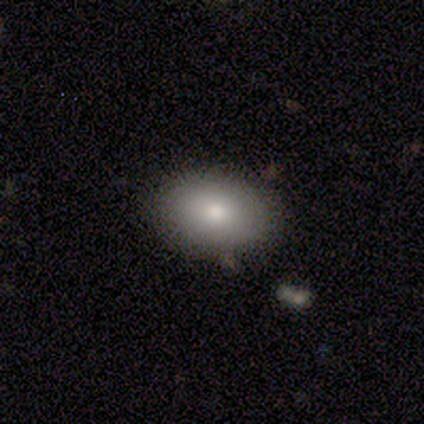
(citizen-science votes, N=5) Q: Smooth or featured?
A: smooth (80%); runner-up: star or artifact (20%)
Q: How rounded?
A: in between (100%)
Q: Merging?
A: minor disturbance (75%); runner-up: none (25%)